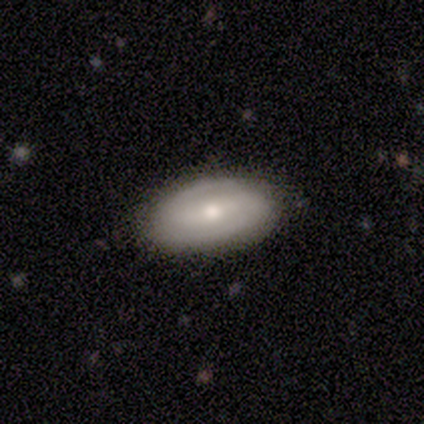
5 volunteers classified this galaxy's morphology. Volunteers were most divided on "smooth or featured": smooth: 60%, featured or disk: 40%, star or artifact: 0%. More confident: how rounded — in between (100%); merging — none (100%).